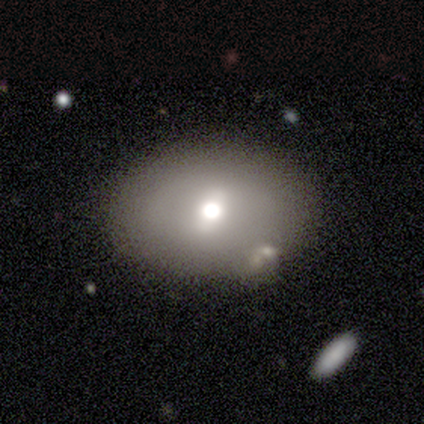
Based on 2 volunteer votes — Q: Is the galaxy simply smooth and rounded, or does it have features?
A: smooth — 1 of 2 (50%, tied with featured or disk).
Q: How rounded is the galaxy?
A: in between — 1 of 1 (100%).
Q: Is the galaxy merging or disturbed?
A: none — 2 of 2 (100%).